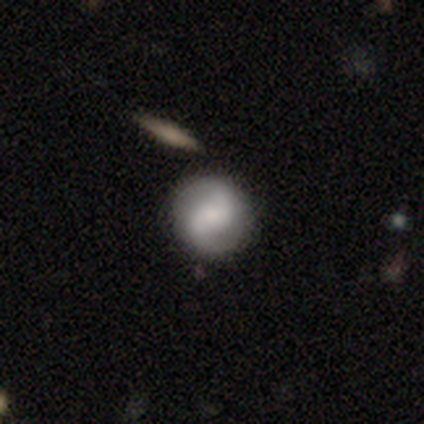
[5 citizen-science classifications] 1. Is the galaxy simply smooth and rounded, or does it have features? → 80% featured or disk, 20% smooth, 0% star or artifact.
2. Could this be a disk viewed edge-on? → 100% no, 0% yes.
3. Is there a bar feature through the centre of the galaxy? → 50% weak (tied), 50% no (tied), 0% strong.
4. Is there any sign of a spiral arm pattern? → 100% yes, 0% no.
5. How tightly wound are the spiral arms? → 75% loose, 25% medium, 0% tight.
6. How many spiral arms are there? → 75% 2, 25% 1, 0% 3, 0% 4, 0% more than 4, 0% can't tell.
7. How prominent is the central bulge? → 50% moderate (tied), 50% small (tied), 0% dominant, 0% large, 0% none.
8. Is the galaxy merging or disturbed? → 80% none, 20% minor disturbance, 0% major disturbance, 0% merger.